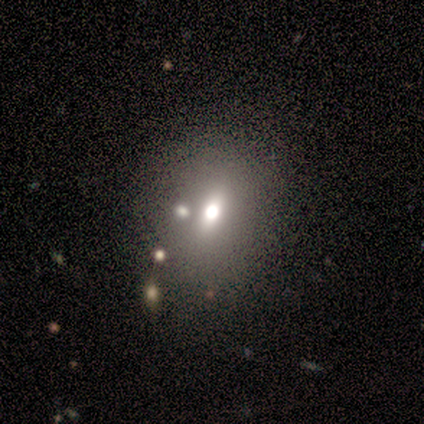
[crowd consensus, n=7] Volunteers were most divided on "how rounded": in between: 60%, round: 40%, cigar-shaped: 0%. More confident: smooth or featured — smooth (71%); merging — none (60%).